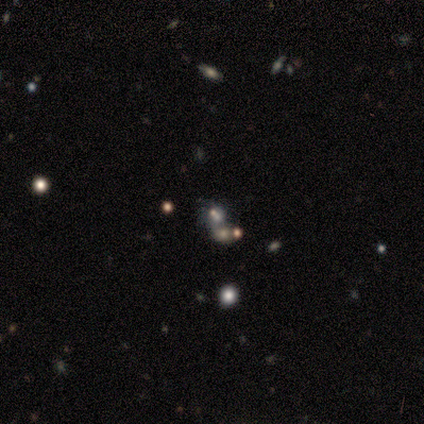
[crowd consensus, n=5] Smooth or featured?
  - star or artifact: 80% *
  - featured or disk: 20%
  - smooth: 0%